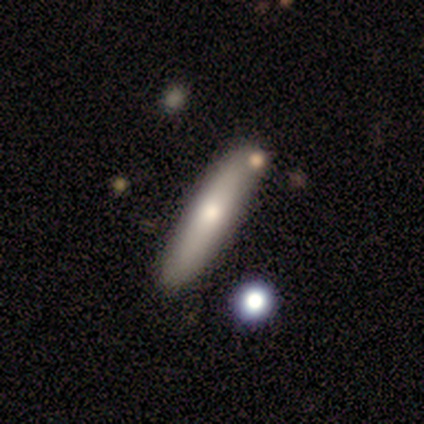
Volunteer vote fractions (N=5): smooth-or-featured: featured or disk: 60% | smooth: 40% | star or artifact: 0%
  disk-edge-on: yes: 67% | no: 33%
    edge-on-bulge: rounded: 100% | boxy: 0% | none: 0%
  merging: none: 100% | minor disturbance: 0% | major disturbance: 0% | merger: 0%